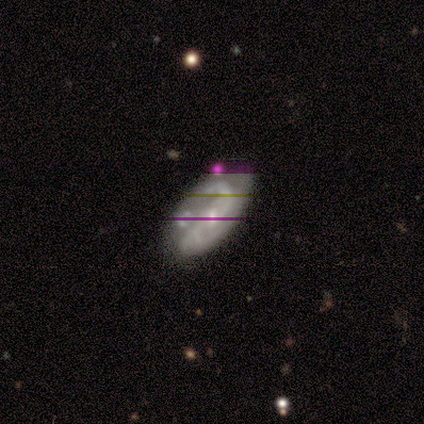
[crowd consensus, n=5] This appears to be a featured or disk galaxy (100%) with a strong bar (60%), 2 (80%) loose (80%) spiral arms (100%) and a small central bulge (60%). Merging: none (60%).